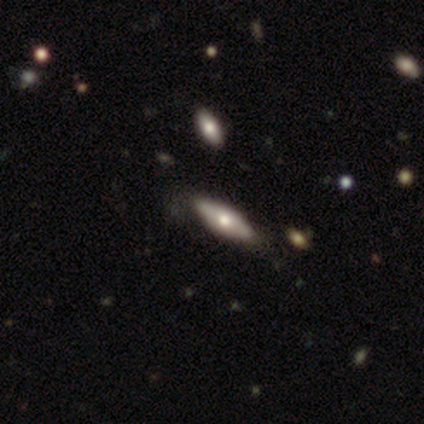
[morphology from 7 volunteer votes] Smooth or featured? 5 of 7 (71%) said smooth. How rounded? 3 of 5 (60%) said cigar-shaped. Merging? 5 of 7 (71%) said none.